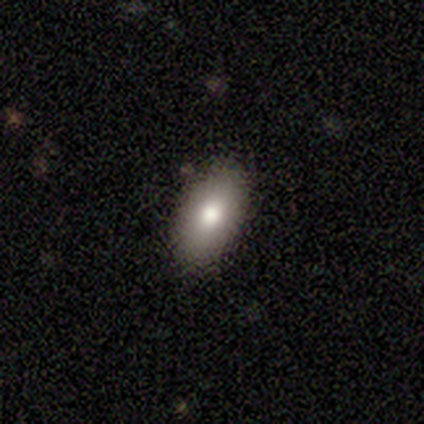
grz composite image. It shows a smooth galaxy with no disk features (85%) that is in between round and cigar-shaped (91%). Merging: none (86%).